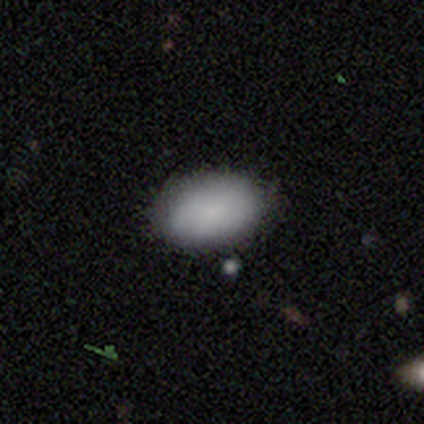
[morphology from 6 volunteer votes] Volunteers were most divided on "smooth or featured": smooth: 83%, featured or disk: 17%, star or artifact: 0%. More confident: how rounded — in between (100%); merging — none (100%).